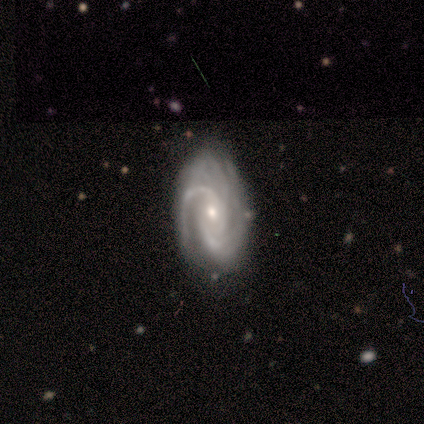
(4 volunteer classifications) smooth-or-featured: featured or disk: 100% | smooth: 0% | star or artifact: 0%
  disk-edge-on: no: 100% | yes: 0%
    bar: weak: 50% (tied) | no: 50% (tied) | strong: 0%
    has-spiral-arms: yes: 100% | no: 0%
      spiral-winding: tight: 75% | medium: 25% | loose: 0%
      spiral-arm-count: 2: 50% | 3: 25% | can't tell: 25% | 1: 0% | 4: 0% | more than 4: 0%
    bulge-size: small: 75% | moderate: 25% | dominant: 0% | large: 0% | none: 0%
  merging: none: 75% | minor disturbance: 25% | major disturbance: 0% | merger: 0%